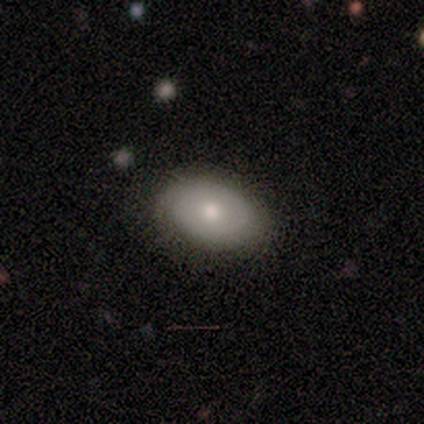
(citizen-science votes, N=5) Smooth or featured? smooth (100%)
How rounded? in between (100%)
Merging? none (80%)